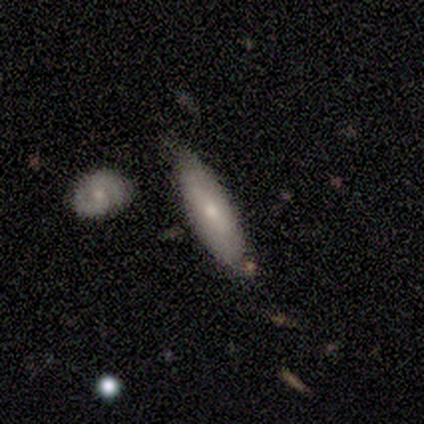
smooth_or_featured: smooth (p=0.80) [alt: featured or disk p=0.20]
how_rounded: cigar-shaped (p=1.00)
merging: none (p=0.80) [alt: minor disturbance p=0.20]